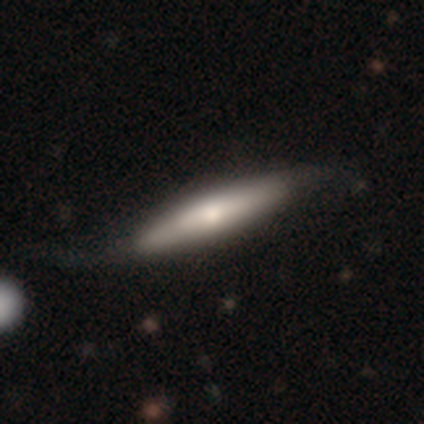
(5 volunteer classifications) Smooth or featured?
  - smooth: 40% * (tied)
  - featured or disk: 40% * (tied)
  - star or artifact: 20%
How rounded?
  - cigar-shaped: 100% *
  - round: 0%
  - in between: 0%
Merging?
  - none: 75% *
  - major disturbance: 25%
  - minor disturbance: 0%
  - merger: 0%